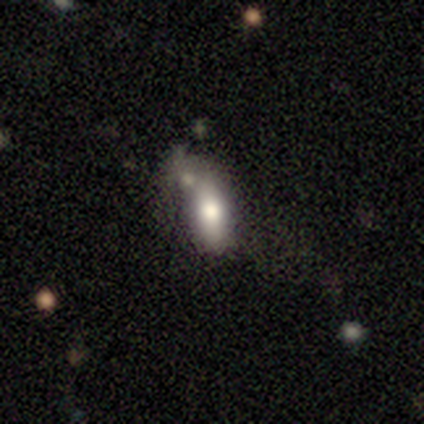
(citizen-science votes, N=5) Volunteers were most divided on "smooth or featured": smooth: 60%, featured or disk: 40%, star or artifact: 0%. More confident: how rounded — cigar-shaped (67%); merging — merger (60%).